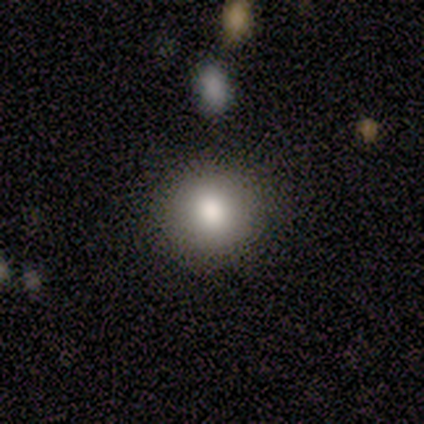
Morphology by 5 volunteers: Q: Smooth or featured?
A: smooth (100%)
Q: How rounded?
A: round (100%)
Q: Merging?
A: none (80%); runner-up: major disturbance (20%)